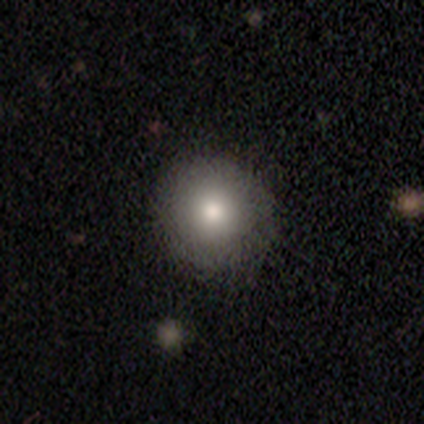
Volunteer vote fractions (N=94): A smooth galaxy with no disk features (77%) that is round (94%).

Vote fractions:
- Smooth or featured? smooth: 77% / star or artifact: 14% / featured or disk: 10%
- How rounded? round: 94% / in between: 6% / cigar-shaped: 0%
- Merging? none: 85% / minor disturbance: 12% / major disturbance: 1% / merger: 1%